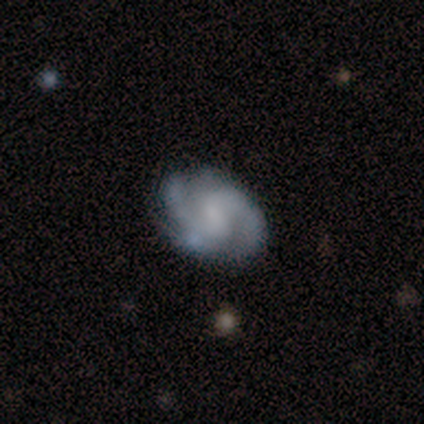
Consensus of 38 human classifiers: Overall: featured or disk (89%). Edge-on disk: no (100%). Bar: weak (53%; no 38%). Spiral arms: yes (97%). Spiral arm count: 2 (73%). Spiral winding: medium (67%). Bulge size: none (44%; small 29%). Merging: none (71%).